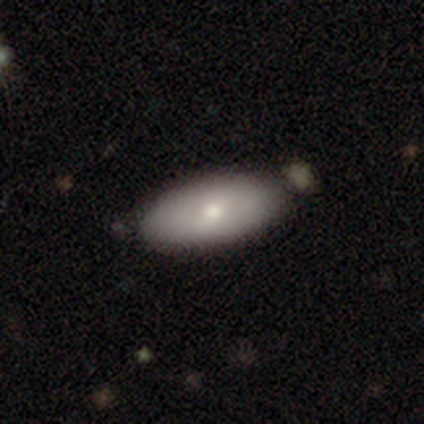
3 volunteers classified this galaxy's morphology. Smooth or featured: smooth — 100%
How rounded: in between — 100%
Merging: none — 100%